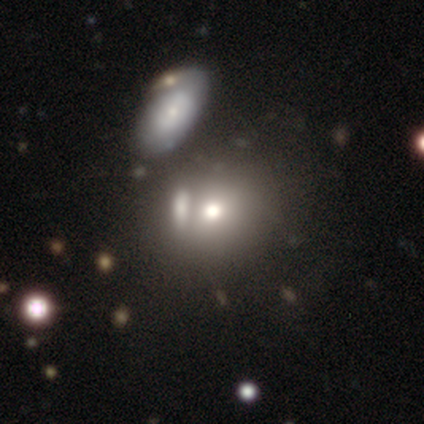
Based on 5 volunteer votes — A smooth galaxy with no disk features (40%, tied with star or artifact) that is round (50%, tied with in between).

Vote fractions:
- Smooth or featured? smooth: 40% (tied) / star or artifact: 40% (tied) / featured or disk: 20%
- How rounded? round: 50% (tied) / in between: 50% (tied) / cigar-shaped: 0%
- Merging? none: 33% (tied) / minor disturbance: 33% (tied) / merger: 33% (tied) / major disturbance: 0%